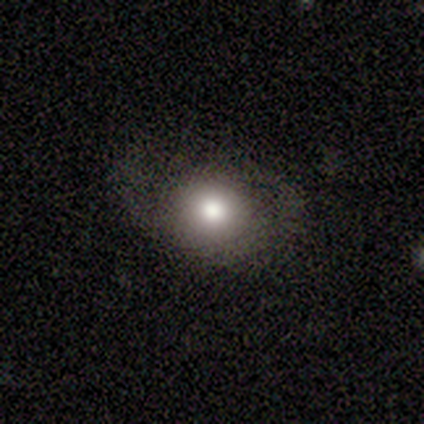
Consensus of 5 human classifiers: Overall: smooth (80%). How rounded: in between (75%). Merging: none (75%).